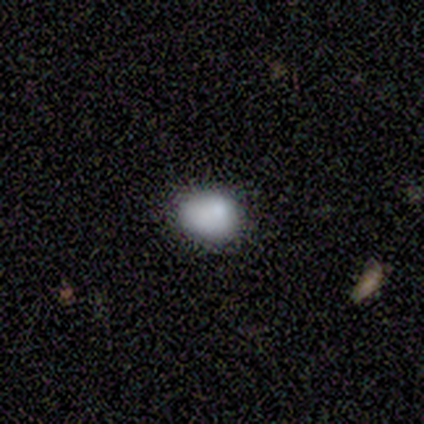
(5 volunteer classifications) Volunteers were most divided on "how rounded" (2-way tie): round: 50%, in between: 50%, cigar-shaped: 0%; "merging" (2-way tie): none: 50%, minor disturbance: 50%, major disturbance: 0%, merger: 0%. More confident: smooth or featured — smooth (80%).